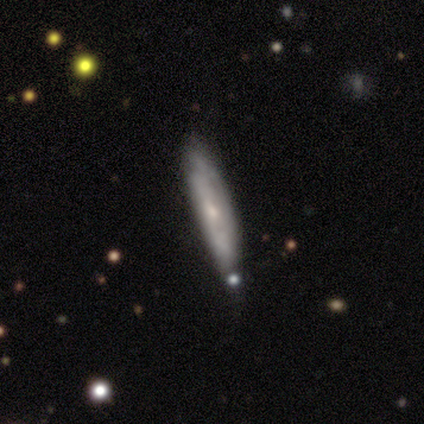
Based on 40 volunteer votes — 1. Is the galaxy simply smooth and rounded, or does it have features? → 50% smooth, 45% featured or disk, 5% star or artifact.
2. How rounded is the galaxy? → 95% cigar-shaped, 5% in between, 0% round.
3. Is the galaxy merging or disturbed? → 76% none, 18% minor disturbance, 3% major disturbance, 3% merger.